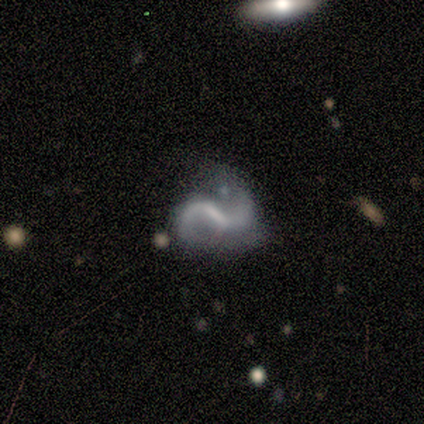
A featured or disk galaxy (100%) with a weak bar (75%), 2 (100%) medium (67%) spiral arms (75%) and no central bulge (50%).

Vote fractions:
- Smooth or featured? featured or disk: 100% / smooth: 0% / star or artifact: 0%
- Edge-on disk? no: 80% / yes: 20%
- Bar? weak: 75% / strong: 25% / no: 0%
- Spiral arms? yes: 75% / no: 25%
- Spiral winding? medium: 67% / loose: 33% / tight: 0%
- Spiral arm count? 2: 100% / 1: 0% / 3: 0% / 4: 0% / more than 4: 0% / can't tell: 0%
- Bulge size? none: 50% / moderate: 25% / small: 25% / dominant: 0% / large: 0%
- Merging? none: 40% (tied) / minor disturbance: 40% (tied) / major disturbance: 20% / merger: 0%